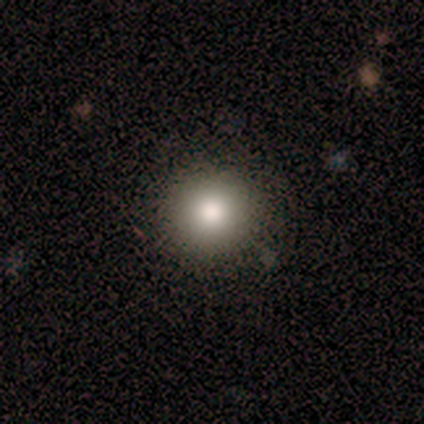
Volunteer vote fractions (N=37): smooth-or-featured: smooth: 78% | featured or disk: 11% | star or artifact: 11%
  how-rounded: round: 93% | in between: 7% | cigar-shaped: 0%
  merging: none: 82% | minor disturbance: 15% | major disturbance: 3% | merger: 0%